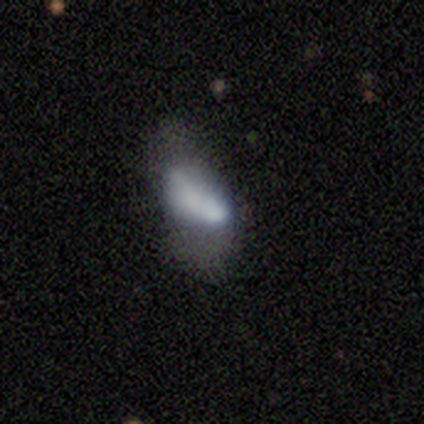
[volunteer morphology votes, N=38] Smooth or featured? 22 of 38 (58%) said smooth. How rounded? 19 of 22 (86%) said in between. Merging? 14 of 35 (40%) said major disturbance.